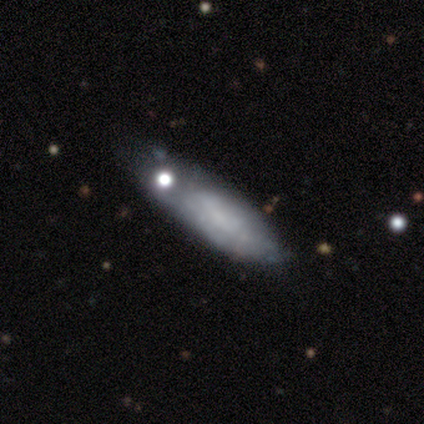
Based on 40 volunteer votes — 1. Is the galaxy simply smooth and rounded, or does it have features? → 57% smooth, 40% featured or disk, 2% star or artifact.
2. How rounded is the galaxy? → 65% in between, 35% cigar-shaped, 0% round.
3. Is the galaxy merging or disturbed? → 46% minor disturbance, 41% none, 8% merger, 5% major disturbance.